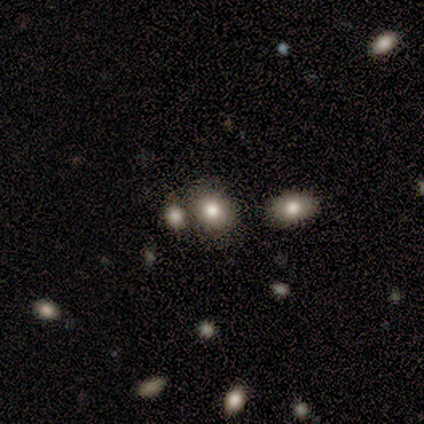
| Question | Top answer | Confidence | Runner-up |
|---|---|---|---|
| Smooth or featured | smooth | 80% | featured or disk (20%) |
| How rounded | round | 50% | tied: in between (50%) |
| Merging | none | 60% | minor disturbance (20%) |